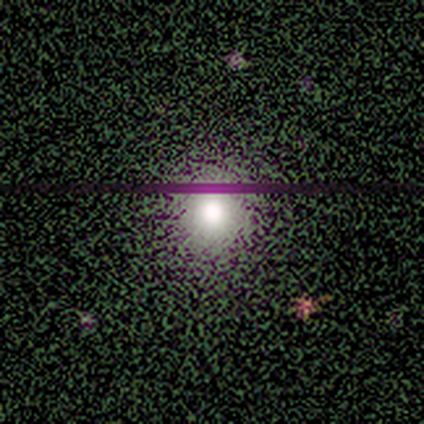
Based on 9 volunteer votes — Overall: smooth (44%, tied with star or artifact). How rounded: round (75%). Merging: none (80%).